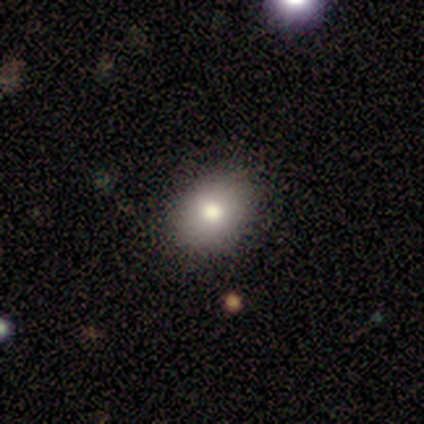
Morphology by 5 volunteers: This is clearly a smooth galaxy (100%). How rounded: clearly round (80%). Merging: clearly none (100%).